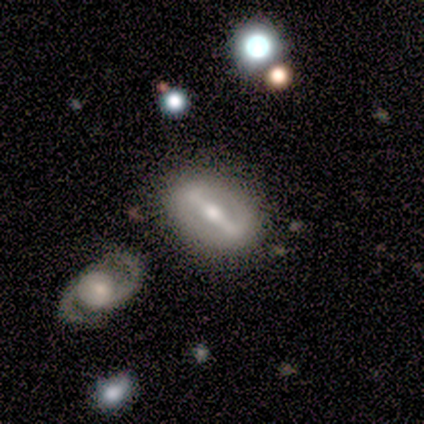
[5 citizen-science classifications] smooth-or-featured: featured or disk: 100% | smooth: 0% | star or artifact: 0%
  disk-edge-on: no: 80% | yes: 20%
    bar: strong: 75% | weak: 25% | no: 0%
    has-spiral-arms: no: 100% | yes: 0%
    bulge-size: moderate: 100% | dominant: 0% | large: 0% | small: 0% | none: 0%
  merging: none: 100% | minor disturbance: 0% | major disturbance: 0% | merger: 0%